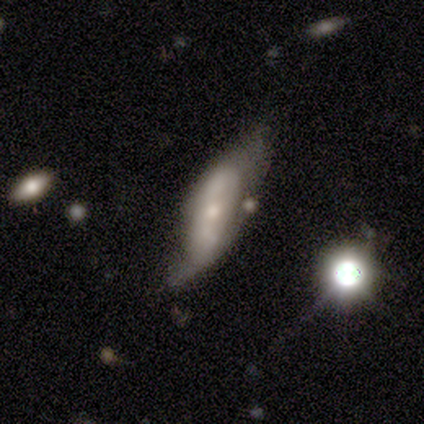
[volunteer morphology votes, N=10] Overall: featured or disk (70%; smooth 30%). Edge-on disk: no (100%). Bar: no (86%). Spiral arms: no (71%). Bulge size: small (71%). Merging: major disturbance (60%; none 30%).